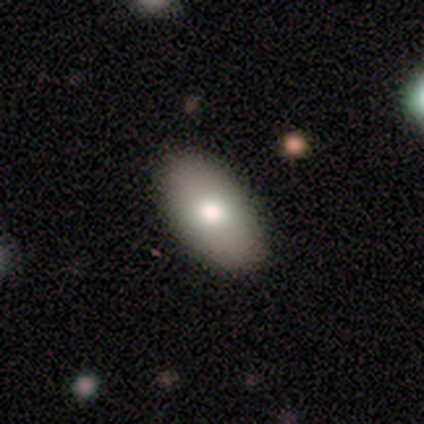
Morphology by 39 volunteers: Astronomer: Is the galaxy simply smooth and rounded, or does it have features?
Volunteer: smooth — 87%.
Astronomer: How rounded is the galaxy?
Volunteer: in between — 94%.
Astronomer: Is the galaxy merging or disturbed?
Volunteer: none — 90%.